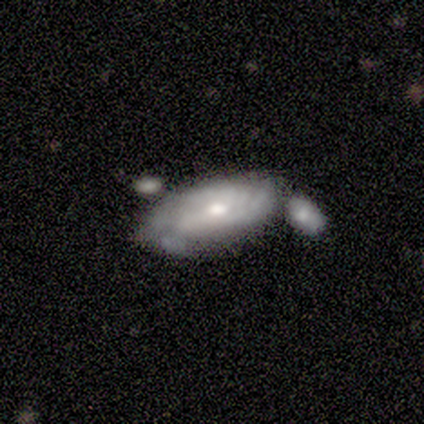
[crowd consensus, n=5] Overall: smooth (80%). How rounded: in between (100%). Merging: none (60%; merger 40%).